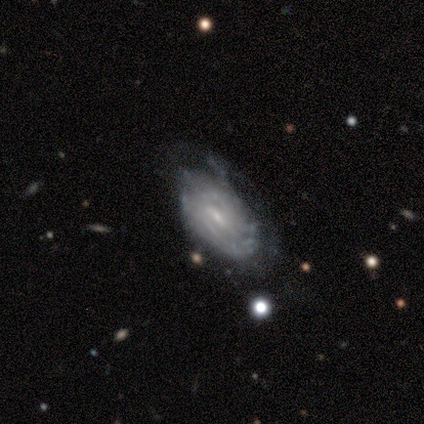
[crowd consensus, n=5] A featured or disk galaxy (80%) with a weak bar (100%), no spiral arms (75%) and a small central bulge (75%).

Vote fractions:
- Smooth or featured? featured or disk: 80% / smooth: 20% / star or artifact: 0%
- Edge-on disk? no: 100% / yes: 0%
- Bar? weak: 100% / strong: 0% / no: 0%
- Spiral arms? no: 75% / yes: 25%
- Bulge size? small: 75% / none: 25% / dominant: 0% / large: 0% / moderate: 0%
- Merging? none: 40% (tied) / minor disturbance: 40% (tied) / major disturbance: 20% / merger: 0%